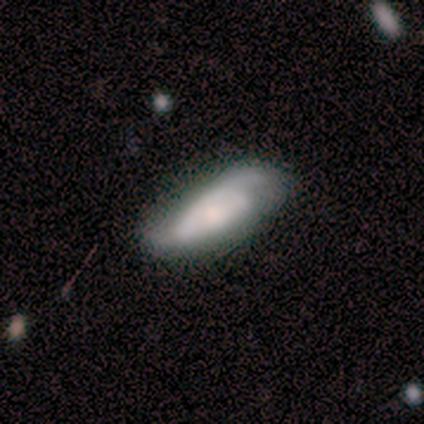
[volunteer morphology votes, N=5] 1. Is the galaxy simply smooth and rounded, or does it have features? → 80% featured or disk, 20% smooth, 0% star or artifact.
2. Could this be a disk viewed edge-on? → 100% no, 0% yes.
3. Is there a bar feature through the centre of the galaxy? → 75% no, 25% weak, 0% strong.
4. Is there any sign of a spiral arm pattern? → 100% yes, 0% no.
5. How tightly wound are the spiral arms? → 50% medium, 25% tight, 25% loose.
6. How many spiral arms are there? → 50% 2, 25% 3, 25% can't tell, 0% 1, 0% 4, 0% more than 4.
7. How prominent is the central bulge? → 75% large, 25% moderate, 0% dominant, 0% small, 0% none.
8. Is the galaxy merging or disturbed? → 40% minor disturbance, 20% none, 20% major disturbance, 20% merger.